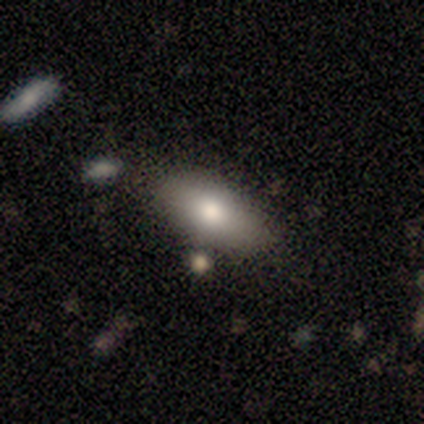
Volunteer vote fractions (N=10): Volunteers were most divided on "smooth or featured": smooth: 80%, featured or disk: 20%, star or artifact: 0%. More confident: how rounded — in between (100%); merging — none (80%).